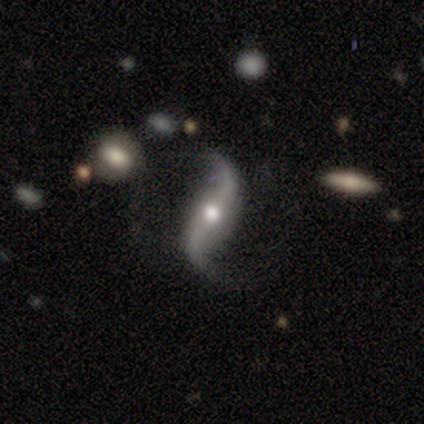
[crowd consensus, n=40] A featured or disk galaxy (90%) with no bar (44%), 2 (97%) loose (94%) spiral arms (100%) and a moderate central bulge (75%).

Vote fractions:
- Smooth or featured? featured or disk: 90% / smooth: 8% / star or artifact: 2%
- Edge-on disk? no: 89% / yes: 11%
- Bar? no: 44% / weak: 31% / strong: 25%
- Spiral arms? yes: 100% / no: 0%
- Spiral winding? loose: 94% / medium: 6% / tight: 0%
- Spiral arm count? 2: 97% / can't tell: 3% / 1: 0% / 3: 0% / 4: 0% / more than 4: 0%
- Bulge size? moderate: 75% / small: 19% / large: 6% / dominant: 0% / none: 0%
- Merging? none: 82% / minor disturbance: 10% / major disturbance: 5% / merger: 3%